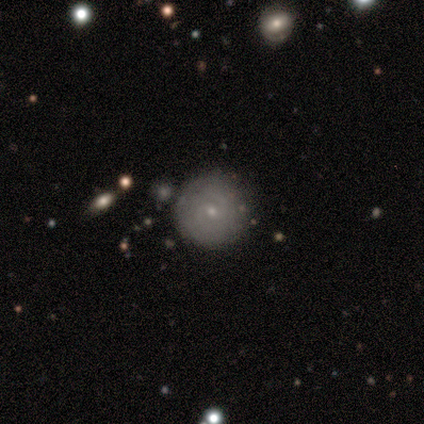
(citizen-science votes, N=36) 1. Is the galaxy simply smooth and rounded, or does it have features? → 47% smooth (tied), 47% featured or disk (tied), 6% star or artifact.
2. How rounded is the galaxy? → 94% round, 6% in between, 0% cigar-shaped.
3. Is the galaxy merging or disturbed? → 79% none, 9% merger, 6% minor disturbance, 6% major disturbance.